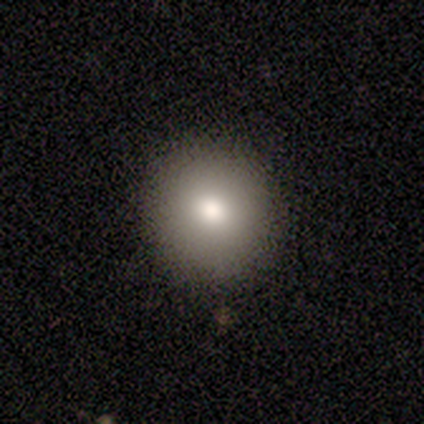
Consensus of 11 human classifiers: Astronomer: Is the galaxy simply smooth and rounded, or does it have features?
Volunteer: smooth — 82%.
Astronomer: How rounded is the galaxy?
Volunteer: round — 89%.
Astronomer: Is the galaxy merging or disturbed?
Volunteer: none — 80%.